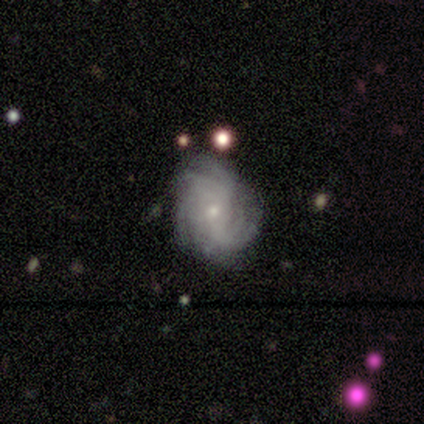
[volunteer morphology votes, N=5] This appears to be a smooth galaxy with no disk features (40%, tied with featured or disk) that is in between round and cigar-shaped (100%). Merging: none (75%).